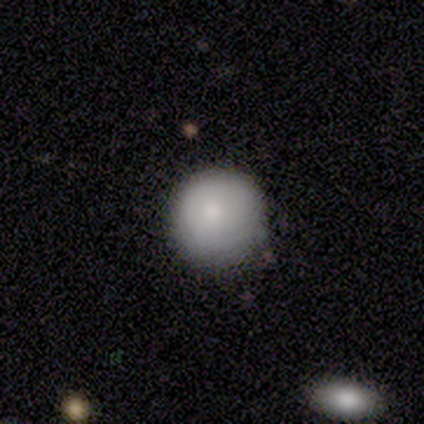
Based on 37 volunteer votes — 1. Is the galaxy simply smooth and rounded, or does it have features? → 81% smooth, 14% featured or disk, 5% star or artifact.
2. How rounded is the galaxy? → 100% round, 0% in between, 0% cigar-shaped.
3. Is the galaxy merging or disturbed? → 83% none, 17% minor disturbance, 0% major disturbance, 0% merger.